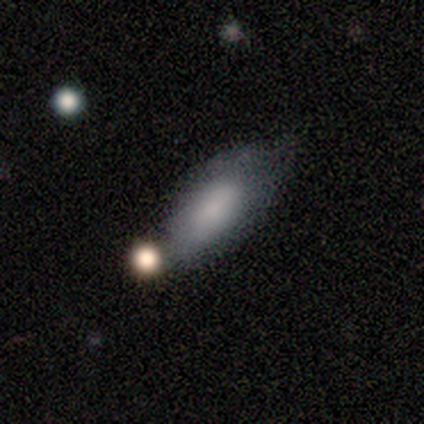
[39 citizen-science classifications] Q: Smooth or featured?
A: smooth (72%); runner-up: featured or disk (23%)
Q: How rounded?
A: in between (93%); runner-up: cigar-shaped (7%)
Q: Merging?
A: none (41%); runner-up: minor disturbance (35%)